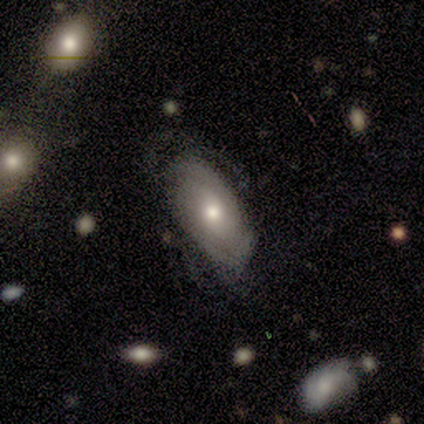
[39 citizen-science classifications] Volunteers were most divided on "spiral arm count": can't tell: 46%, 2: 38%, 1: 8%, 3: 8%, 4: 0%, more than 4: 0%. Remaining: edge-on disk — no (100%); spiral winding — tight (69%); spiral arms — yes (68%); bulge size — moderate (68%); bar — no (63%); merging — none (50%); smooth or featured — featured or disk (49%).